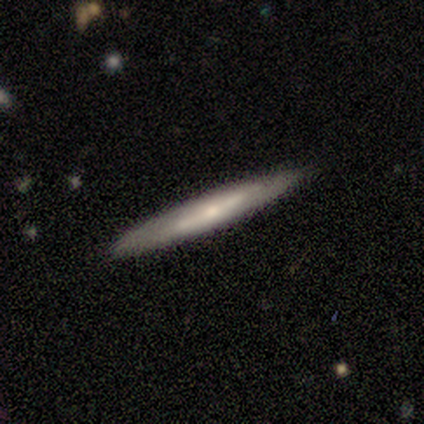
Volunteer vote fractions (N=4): Morphology: type=smooth (50%, tied with featured or disk); roundness=cigar-shaped (100%); merging=none (75%).